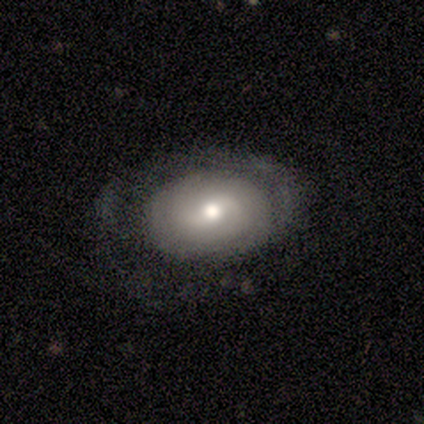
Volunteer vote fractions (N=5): Smooth or featured? 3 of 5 (60%) said smooth. How rounded? 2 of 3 (67%) said in between. Merging? 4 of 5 (80%) said major disturbance.